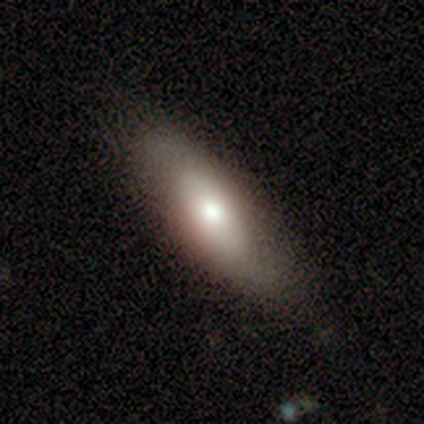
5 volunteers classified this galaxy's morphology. type=smooth (60%); roundness=in between (100%); merging=none (80%).